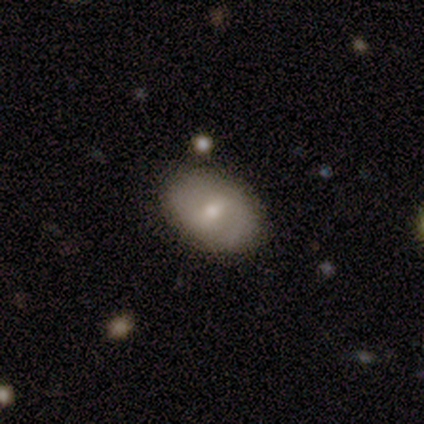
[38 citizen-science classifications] This appears to be a smooth galaxy with no disk features (53%) that is in between round and cigar-shaped (90%). Merging: none (82%).